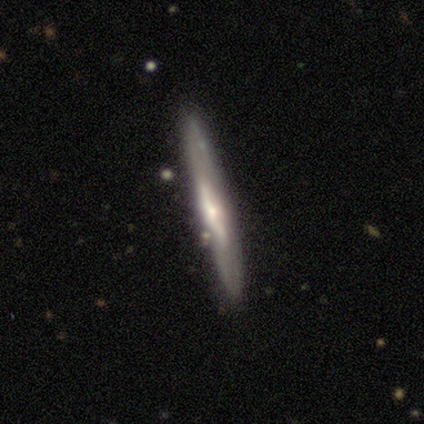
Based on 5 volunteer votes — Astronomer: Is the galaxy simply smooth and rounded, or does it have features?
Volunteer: featured or disk — 100%.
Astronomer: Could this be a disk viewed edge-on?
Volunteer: yes — 100%.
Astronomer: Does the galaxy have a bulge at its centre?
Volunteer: rounded — 60%.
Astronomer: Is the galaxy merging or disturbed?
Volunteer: none — 60% (runner-up: minor disturbance, 40%).